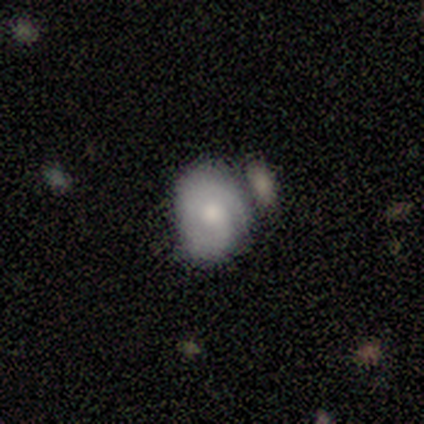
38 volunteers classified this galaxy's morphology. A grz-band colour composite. It shows a smooth galaxy with no disk features (55%) that is in between round and cigar-shaped (71%). Merging: none (39%).